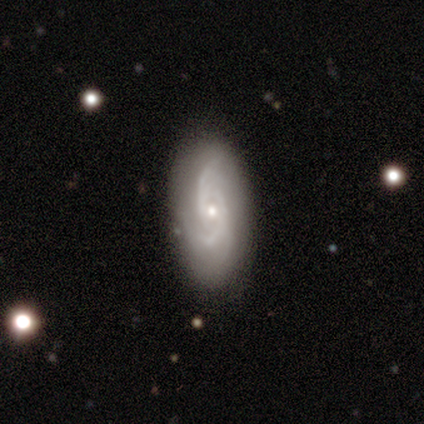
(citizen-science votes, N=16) A featured or disk galaxy (69%) with no bar (91%), 3 (45%) medium (55%) spiral arms (100%) and a small central bulge (64%).

Vote fractions:
- Smooth or featured? featured or disk: 69% / smooth: 25% / star or artifact: 6%
- Edge-on disk? no: 100% / yes: 0%
- Bar? no: 91% / weak: 9% / strong: 0%
- Spiral arms? yes: 100% / no: 0%
- Spiral winding? medium: 55% / loose: 45% / tight: 0%
- Spiral arm count? 3: 45% / 2: 36% / can't tell: 18% / 1: 0% / 4: 0% / more than 4: 0%
- Bulge size? small: 64% / moderate: 36% / dominant: 0% / large: 0% / none: 0%
- Merging? none: 27% (tied) / minor disturbance: 27% (tied) / major disturbance: 7% / merger: 0%